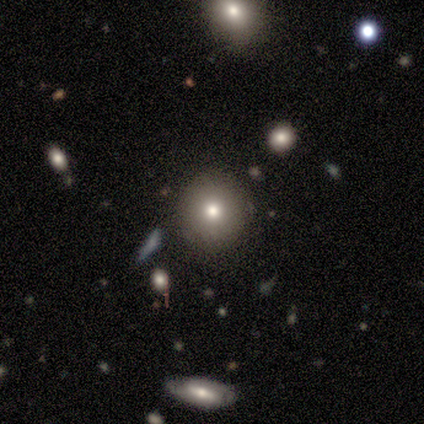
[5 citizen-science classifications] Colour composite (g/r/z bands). It shows a smooth galaxy with no disk features (80%) that is round (100%). Merging: none (100%).